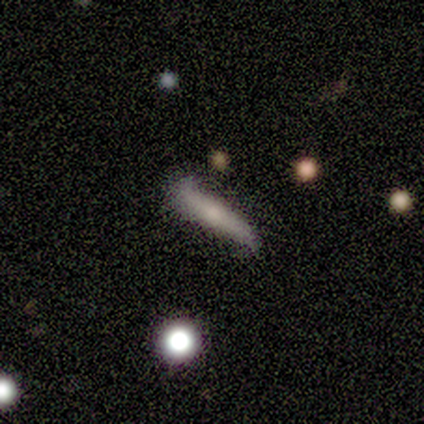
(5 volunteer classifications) Smooth or featured? featured or disk (60%)
Edge-on disk? yes (100%)
Edge-on bulge? none (67%)
Merging? none (50%)